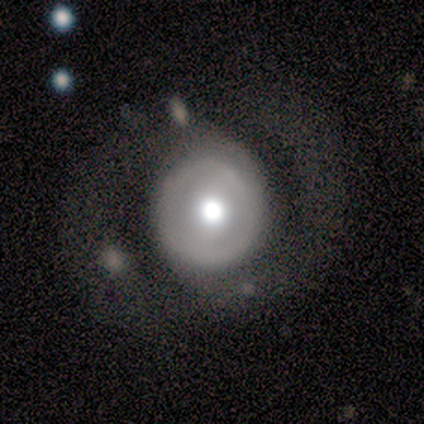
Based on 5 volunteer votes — smooth_or_featured: featured or disk (p=0.60) [alt: smooth p=0.40]
disk_edge_on: no (p=1.00)
bar: no (p=0.67) [alt: strong p=0.33]
has_spiral_arms: yes (p=0.67) [alt: no p=0.33]
spiral_winding: tight (p=0.50) [tied with: medium p=0.50]
spiral_arm_count: 2 (p=1.00)
bulge_size: moderate (p=0.67) [alt: dominant p=0.33]
merging: none (p=0.40) [alt: minor disturbance p=0.20]